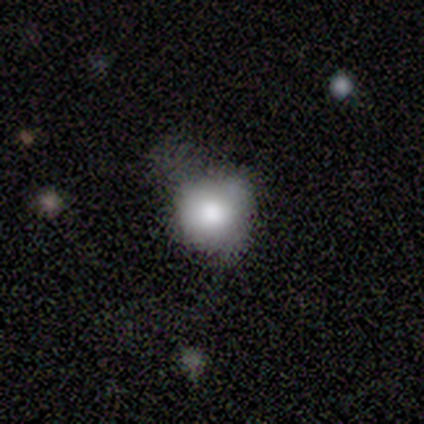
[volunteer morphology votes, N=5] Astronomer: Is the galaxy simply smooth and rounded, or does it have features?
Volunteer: smooth — 80%.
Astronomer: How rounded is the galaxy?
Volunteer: round — 100%.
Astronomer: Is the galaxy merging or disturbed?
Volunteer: none — 60%.